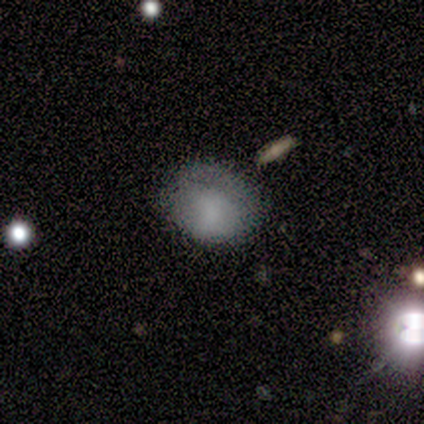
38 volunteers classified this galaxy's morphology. Smooth or featured?
  - smooth: 74% *
  - featured or disk: 21%
  - star or artifact: 5%
How rounded?
  - in between: 50% *
  - round: 46%
  - cigar-shaped: 4%
Merging?
  - none: 53% *
  - minor disturbance: 33%
  - major disturbance: 11%
  - merger: 3%